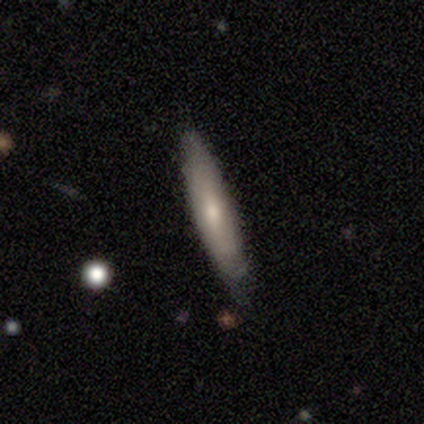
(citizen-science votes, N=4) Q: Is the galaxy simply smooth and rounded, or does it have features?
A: smooth — 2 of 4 (50%, tied with featured or disk).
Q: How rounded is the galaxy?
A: cigar-shaped — 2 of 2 (100%).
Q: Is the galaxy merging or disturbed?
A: none — 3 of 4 (75%).